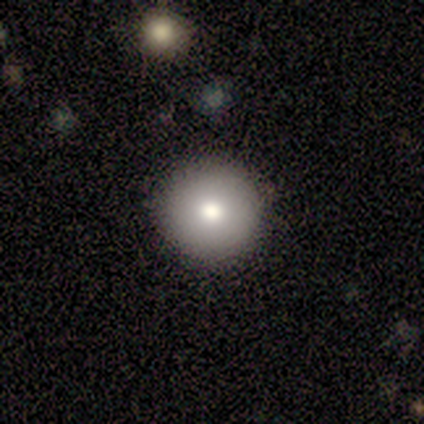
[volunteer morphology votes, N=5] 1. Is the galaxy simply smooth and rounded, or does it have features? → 60% smooth, 20% featured or disk, 20% star or artifact.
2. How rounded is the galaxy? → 100% round, 0% in between, 0% cigar-shaped.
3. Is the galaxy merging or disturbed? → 100% none, 0% minor disturbance, 0% major disturbance, 0% merger.